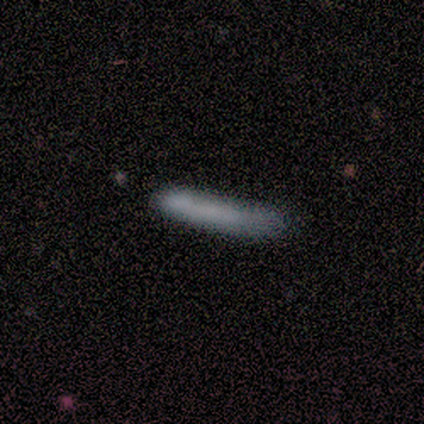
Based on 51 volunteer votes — Volunteers were most divided on "merging": none: 59%, minor disturbance: 35%, major disturbance: 4%, merger: 2%. More confident: how rounded — cigar-shaped (100%); smooth or featured — smooth (69%).